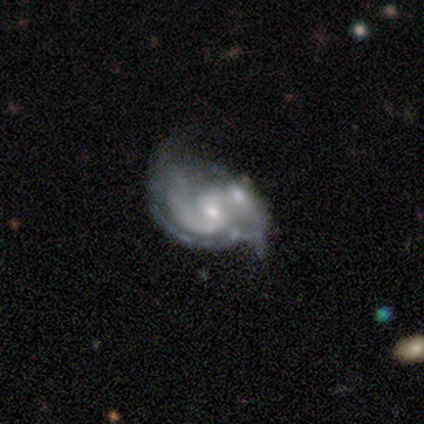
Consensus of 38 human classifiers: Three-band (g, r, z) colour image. It shows a featured or disk galaxy (82%) with no bar (61%), 2 (83%) medium (59%) spiral arms (94%) and a moderate central bulge (48%). Merging: merger (35%).